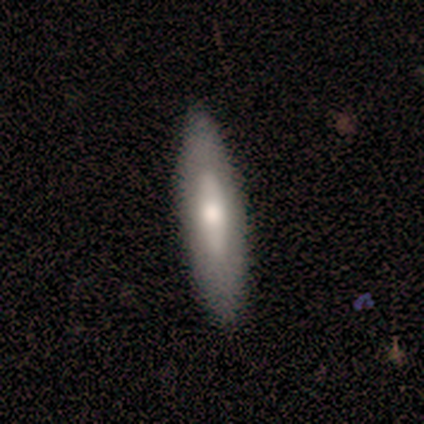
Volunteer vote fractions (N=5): Smooth or featured?
  - featured or disk: 60% *
  - smooth: 40%
  - star or artifact: 0%
Edge-on disk?
  - no: 100% *
  - yes: 0%
Bar?
  - no: 100% *
  - strong: 0%
  - weak: 0%
Spiral arms?
  - no: 100% *
  - yes: 0%
Bulge size?
  - moderate: 67% *
  - small: 33%
  - dominant: 0%
  - large: 0%
  - none: 0%
Merging?
  - none: 100% *
  - minor disturbance: 0%
  - major disturbance: 0%
  - merger: 0%